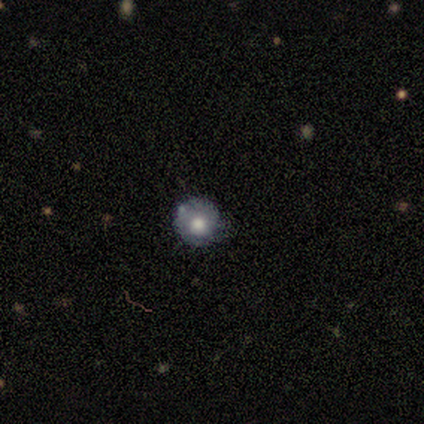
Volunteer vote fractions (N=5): Smooth or featured?
  - smooth: 100% *
  - featured or disk: 0%
  - star or artifact: 0%
How rounded?
  - round: 100% *
  - in between: 0%
  - cigar-shaped: 0%
Merging?
  - none: 100% *
  - minor disturbance: 0%
  - major disturbance: 0%
  - merger: 0%